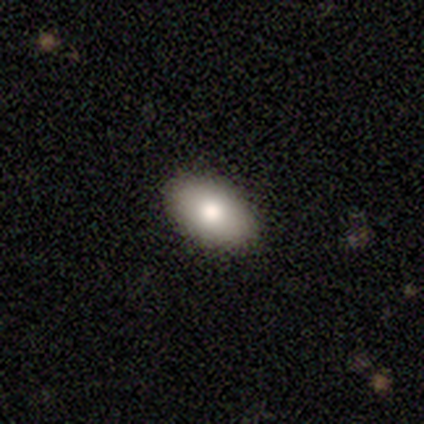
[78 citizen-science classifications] Overall: smooth (83%). How rounded: in between (97%). Merging: none (46%).